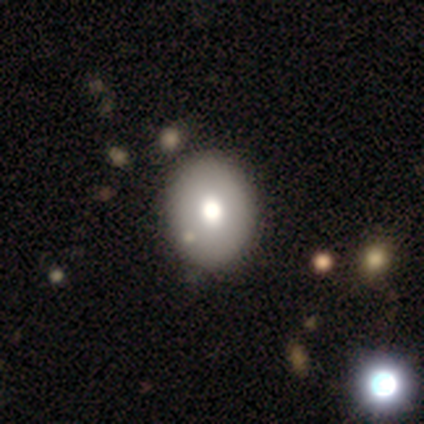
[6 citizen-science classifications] A smooth galaxy with no disk features (67%) that is in between round and cigar-shaped (100%).

Vote fractions:
- Smooth or featured? smooth: 67% / featured or disk: 33% / star or artifact: 0%
- How rounded? in between: 100% / round: 0% / cigar-shaped: 0%
- Merging? none: 100% / minor disturbance: 0% / major disturbance: 0% / merger: 0%